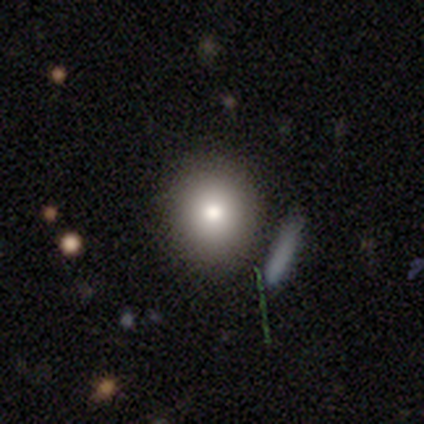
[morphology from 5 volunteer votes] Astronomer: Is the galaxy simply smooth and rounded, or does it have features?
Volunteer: smooth — 100%.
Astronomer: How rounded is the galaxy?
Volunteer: round — 100%.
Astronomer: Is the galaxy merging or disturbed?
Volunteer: none — 100%.